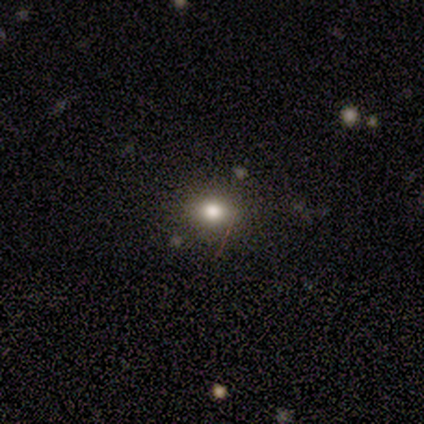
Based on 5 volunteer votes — This appears to be a smooth galaxy with no disk features (60%) that is round (100%). Merging: none (100%).